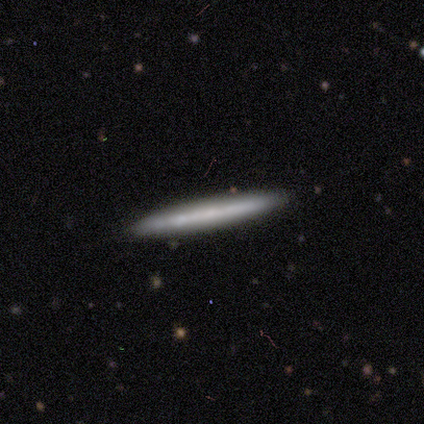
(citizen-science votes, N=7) Q: Smooth or featured?
A: featured or disk (57%); runner-up: smooth (43%)
Q: Edge-on disk?
A: yes (100%)
Q: Edge-on bulge?
A: none (100%)
Q: Merging?
A: none (86%); runner-up: minor disturbance (14%)